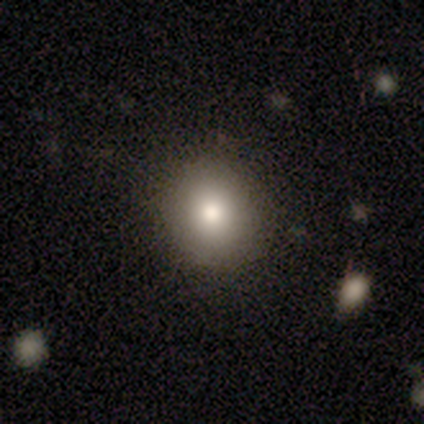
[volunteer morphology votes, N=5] This appears to be a smooth galaxy with no disk features (80%) that is round (100%). Merging: none (60%).